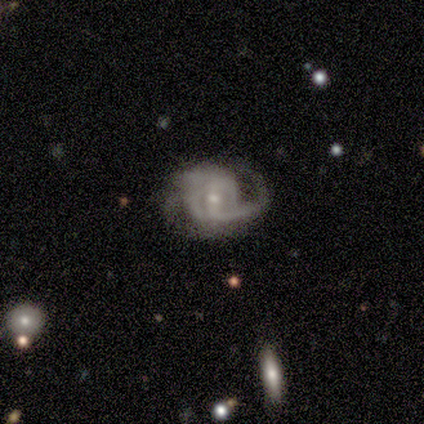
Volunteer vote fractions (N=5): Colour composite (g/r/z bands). It shows a featured or disk galaxy (100%) with a strong bar (60%), tight (80%) spiral arms (100%) and a small central bulge (60%). Merging: minor disturbance (40%, tied with major disturbance).